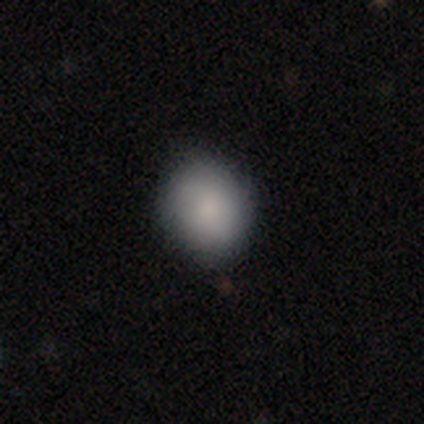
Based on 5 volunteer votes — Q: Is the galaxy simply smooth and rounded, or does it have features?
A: smooth — 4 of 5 (80%).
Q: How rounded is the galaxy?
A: round — 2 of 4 (50%, tied with in between).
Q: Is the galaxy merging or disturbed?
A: none — 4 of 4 (100%).